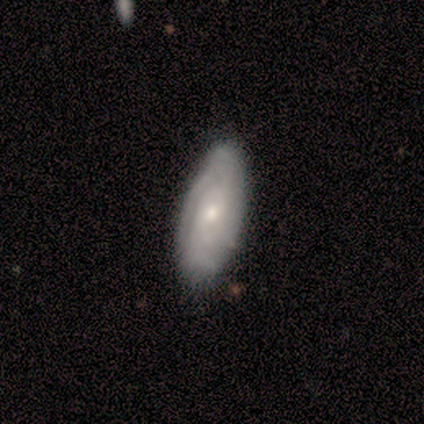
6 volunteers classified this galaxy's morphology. Smooth or featured? 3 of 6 (50%) said featured or disk. Edge-on disk? 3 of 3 (100%) said no. Bar? 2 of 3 (67%) said no. Spiral arms? 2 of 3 (67%) said yes. Spiral winding? 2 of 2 (100%) said tight. Spiral arm count? 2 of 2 (100%) said can't tell. Bulge size? 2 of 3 (67%) said moderate. Merging? 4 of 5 (80%) said none.